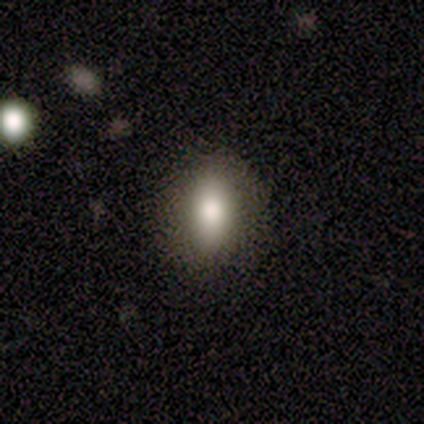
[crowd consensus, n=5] smooth-or-featured: smooth: 80% | featured or disk: 20% | star or artifact: 0%
  how-rounded: in between: 75% | cigar-shaped: 25% | round: 0%
  merging: none: 80% | minor disturbance: 20% | major disturbance: 0% | merger: 0%